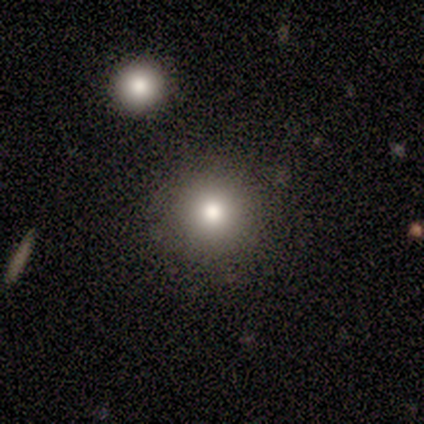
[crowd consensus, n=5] Overall: smooth (60%; star or artifact 40%). How rounded: round (100%). Merging: merger (67%; none 33%).